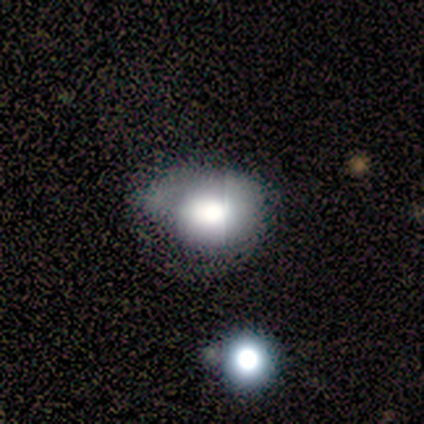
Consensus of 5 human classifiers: A smooth galaxy with no disk features (60%) that is round (33%, tied with in between and cigar-shaped). Merging: minor disturbance (60%).